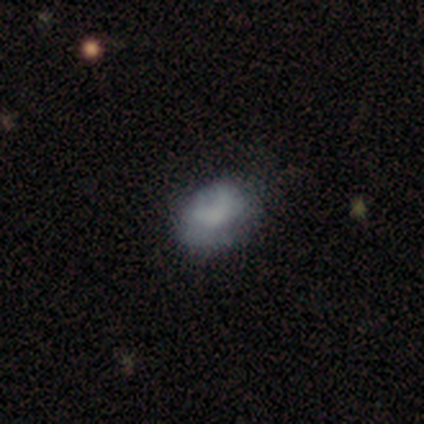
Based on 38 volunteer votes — This is likely a smooth galaxy (68%). How rounded: likely in between (65%). Merging: possibly none (53%).